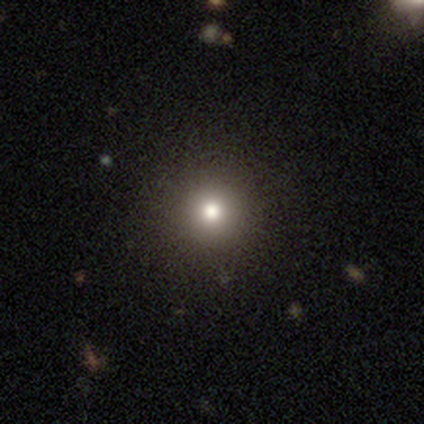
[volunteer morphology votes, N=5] Volunteers were most divided on "how rounded": round: 80%, in between: 20%, cigar-shaped: 0%. More confident: smooth or featured — smooth (100%); merging — none (100%).